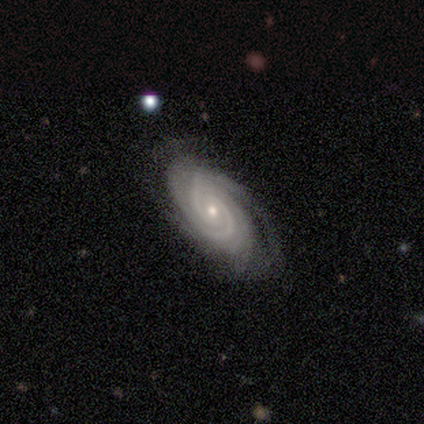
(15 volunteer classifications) Volunteers were most divided on "spiral arm count": 2: 36%, 3: 21%, 4: 14%, more than 4: 14%, can't tell: 14%, 1: 0%. More confident: edge-on disk — no (100%); spiral arms — yes (100%); smooth or featured — featured or disk (93%); bulge size — small (93%); spiral winding — tight (79%); merging — none (73%); bar — no (64%).